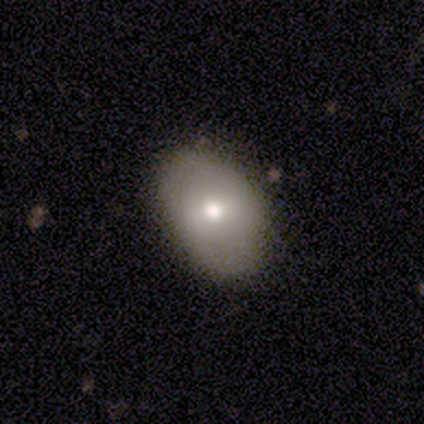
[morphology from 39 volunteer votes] Q: Smooth or featured?
A: smooth (82%); runner-up: featured or disk (13%)
Q: How rounded?
A: in between (75%); runner-up: round (25%)
Q: Merging?
A: none (76%); runner-up: minor disturbance (22%)